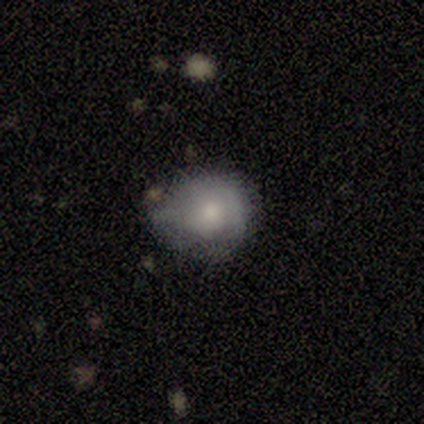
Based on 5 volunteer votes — A smooth galaxy with no disk features (60%) that is round (100%). Merging: none (60%).